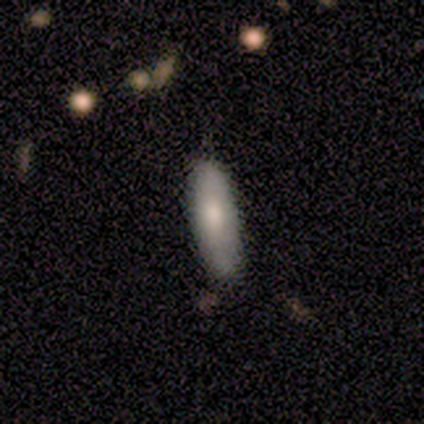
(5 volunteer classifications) Smooth or featured?
  - smooth: 80% *
  - featured or disk: 20%
  - star or artifact: 0%
How rounded?
  - in between: 50% * (tied)
  - cigar-shaped: 50% * (tied)
  - round: 0%
Merging?
  - none: 60% *
  - minor disturbance: 40%
  - major disturbance: 0%
  - merger: 0%